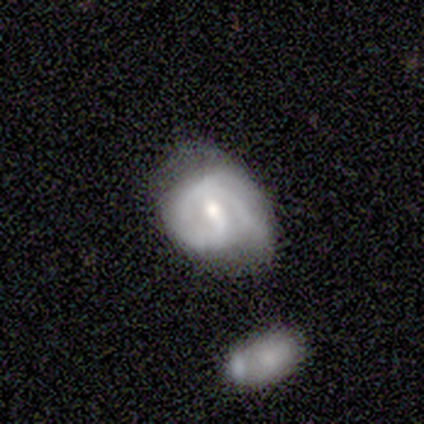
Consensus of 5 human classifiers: featured or disk 60%, smooth 40%, star or artifact 0%. Down the decision tree: edge-on disk — no (100%); bar — weak (67%); spiral arms — yes (67%); spiral arm count — 2 (100%); spiral winding — medium (50%, tied with loose); bulge size — small (100%); merging — none (40%, tied with merger).